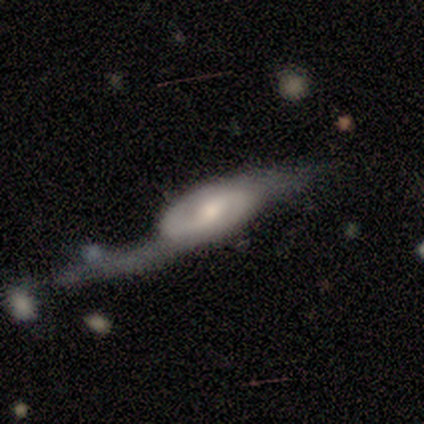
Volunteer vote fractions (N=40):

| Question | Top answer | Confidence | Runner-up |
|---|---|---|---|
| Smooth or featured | featured or disk | 90% | smooth (10%) |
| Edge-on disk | no | 83% | yes (17%) |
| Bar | weak | 53% | no (40%) |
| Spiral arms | yes | 87% | no (13%) |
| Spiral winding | loose | 46% | medium (38%) |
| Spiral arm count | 2 | 96% | can't tell (4%) |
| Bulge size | moderate | 47% | small (27%) |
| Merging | major disturbance | 52% | none (20%) |